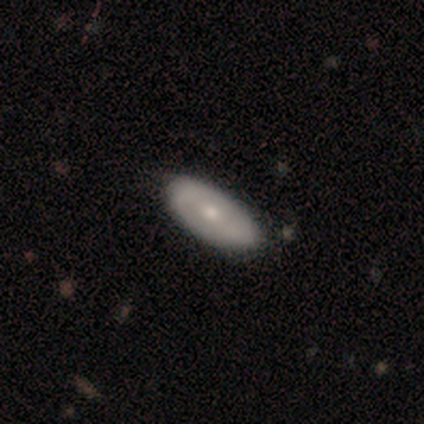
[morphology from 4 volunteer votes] Smooth or featured: smooth — 100%
How rounded: in between — 100%
Merging: none — 75% (minor disturbance — 25%)